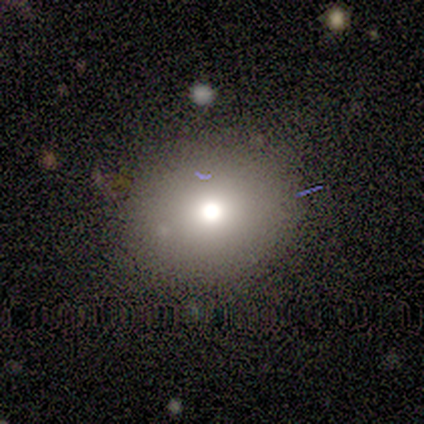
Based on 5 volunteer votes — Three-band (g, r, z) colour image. It shows a smooth galaxy with no disk features (80%) that is round (75%). Merging: none (75%).